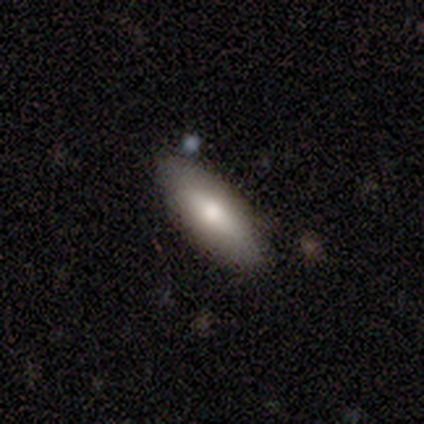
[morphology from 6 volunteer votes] smooth 100%, featured or disk 0%, star or artifact 0%. Down the decision tree: how rounded — in between (50%, tied with cigar-shaped); merging — none (100%).